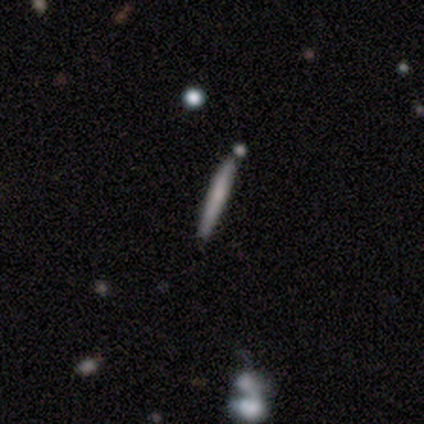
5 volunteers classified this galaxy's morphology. A smooth galaxy with no disk features (40%, tied with featured or disk) that is cigar-shaped (100%).

Vote fractions:
- Smooth or featured? smooth: 40% (tied) / featured or disk: 40% (tied) / star or artifact: 20%
- How rounded? cigar-shaped: 100% / round: 0% / in between: 0%
- Merging? none: 75% / merger: 25% / minor disturbance: 0% / major disturbance: 0%